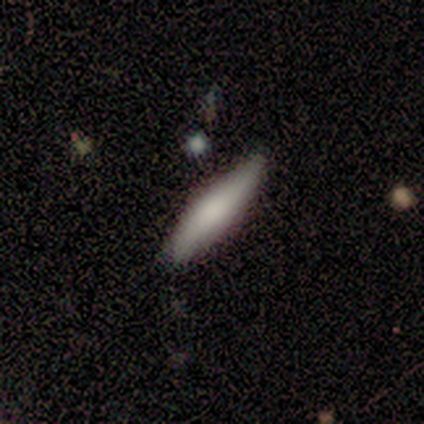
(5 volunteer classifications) This appears to be a featured or disk galaxy (60%) viewed edge-on (67%) with a rounded central bulge (100%). Merging: none (100%).